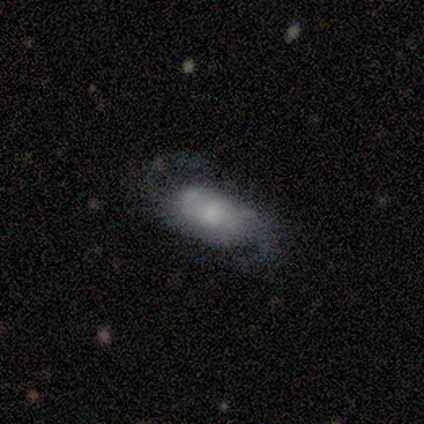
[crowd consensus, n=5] Volunteers were most divided on "spiral winding" (2-way tie): tight: 50%, loose: 50%, medium: 0%. More confident: smooth or featured — featured or disk (100%); spiral arms — yes (100%); spiral arm count — 2 (100%); edge-on disk — no (80%); merging — none (80%); bar — no (75%); bulge size — small (50%).